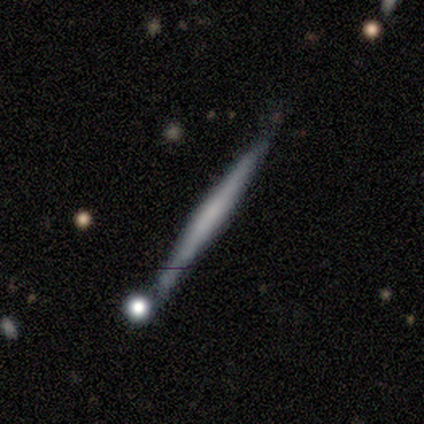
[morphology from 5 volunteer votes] A smooth galaxy with no disk features (60%) that is cigar-shaped (100%).

Vote fractions:
- Smooth or featured? smooth: 60% / featured or disk: 40% / star or artifact: 0%
- How rounded? cigar-shaped: 100% / round: 0% / in between: 0%
- Merging? none: 100% / minor disturbance: 0% / major disturbance: 0% / merger: 0%